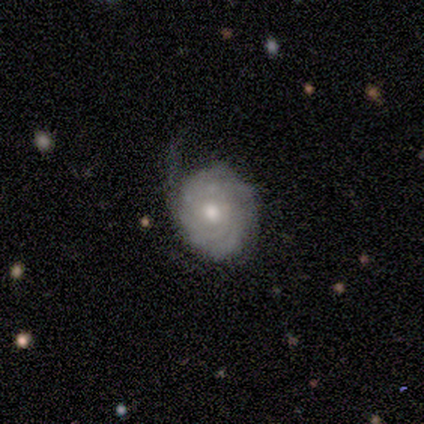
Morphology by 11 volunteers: smooth_or_featured: featured or disk (p=0.82) [alt: star or artifact p=0.18]
disk_edge_on: no (p=1.00)
bar: no (p=0.78) [alt: weak p=0.22]
has_spiral_arms: yes (p=0.67) [alt: no p=0.33]
spiral_winding: tight (p=0.83) [alt: loose p=0.17]
spiral_arm_count: can't tell (p=0.33) [alt: 1 p=0.17]
bulge_size: moderate (p=0.89) [alt: small p=0.11]
merging: minor disturbance (p=0.56) [alt: none p=0.33]